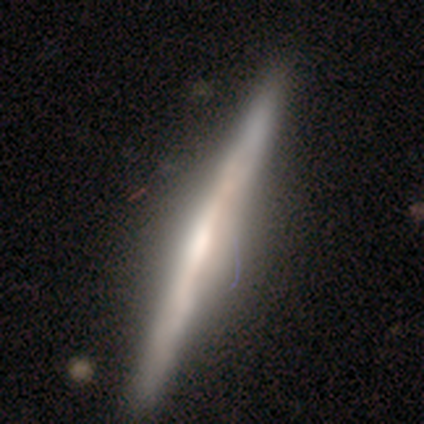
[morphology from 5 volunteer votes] smooth-or-featured: featured or disk: 100% | smooth: 0% | star or artifact: 0%
  disk-edge-on: yes: 100% | no: 0%
    edge-on-bulge: none: 40% (tied) | rounded: 40% (tied) | boxy: 20%
  merging: none: 100% | minor disturbance: 0% | major disturbance: 0% | merger: 0%